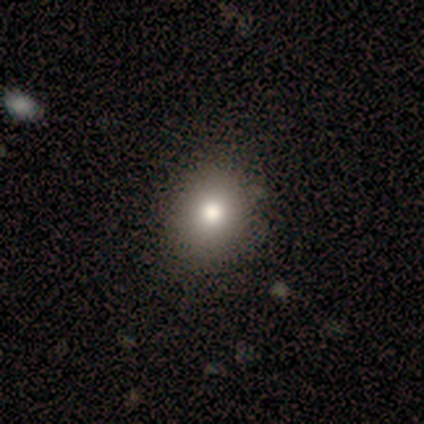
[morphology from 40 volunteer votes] Volunteers were most divided on "how rounded": round: 77%, in between: 23%, cigar-shaped: 0%. More confident: smooth or featured — smooth (75%); merging — none (62%).